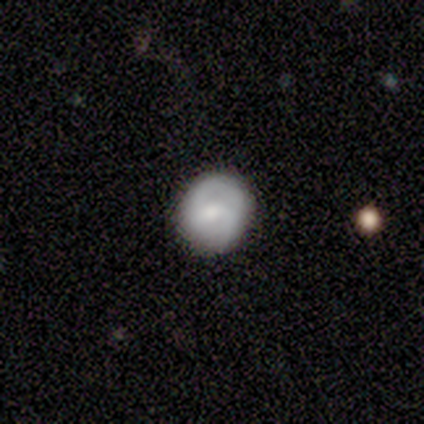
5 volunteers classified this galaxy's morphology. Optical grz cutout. It shows a featured or disk galaxy (100%) with a weak bar (60%), 2 (50%, tied with can't tell) tight (50%, tied with medium) spiral arms (80%) and a moderate central bulge (60%). Merging: none (80%).